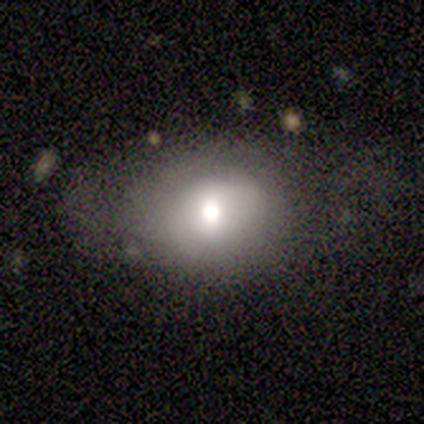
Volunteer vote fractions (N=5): Q: Smooth or featured?
A: smooth (80%); runner-up: featured or disk (20%)
Q: How rounded?
A: round (50%); tied with: in between (50%)
Q: Merging?
A: none (40%); tied with: minor disturbance (40%)